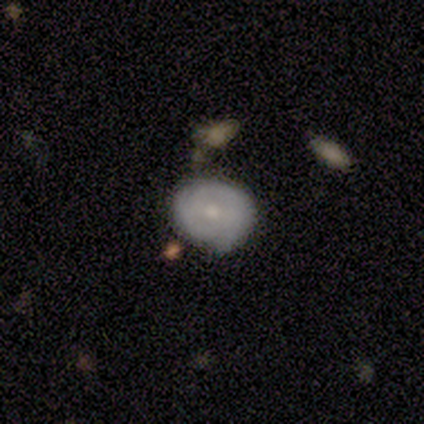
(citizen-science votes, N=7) A featured or disk galaxy (57%) with a weak bar (75%), 2 (75%) tight (75%) spiral arms (100%) and a moderate central bulge (75%). Merging: none (57%).